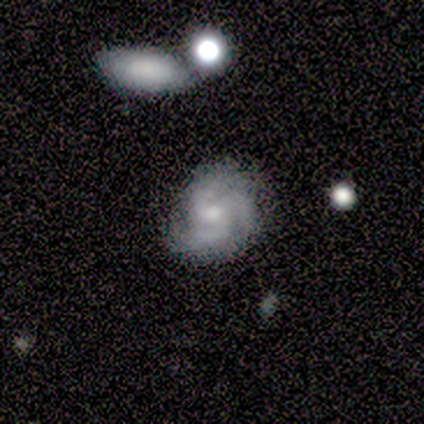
Smooth or featured?
  - featured or disk: 100% *
  - smooth: 0%
  - star or artifact: 0%
Edge-on disk?
  - no: 100% *
  - yes: 0%
Bar?
  - no: 80% *
  - weak: 20%
  - strong: 0%
Spiral arms?
  - yes: 100% *
  - no: 0%
Spiral winding?
  - tight: 40% * (tied)
  - loose: 40% * (tied)
  - medium: 20%
Spiral arm count?
  - 3: 100% *
  - 1: 0%
  - 2: 0%
  - 4: 0%
  - more than 4: 0%
  - can't tell: 0%
Bulge size?
  - moderate: 60% *
  - small: 40%
  - dominant: 0%
  - large: 0%
  - none: 0%
Merging?
  - none: 80% *
  - minor disturbance: 20%
  - major disturbance: 0%
  - merger: 0%